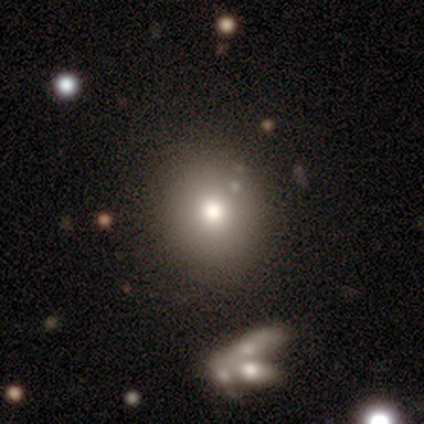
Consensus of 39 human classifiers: A smooth galaxy with no disk features (77%) that is round (80%). Merging: none (62%).